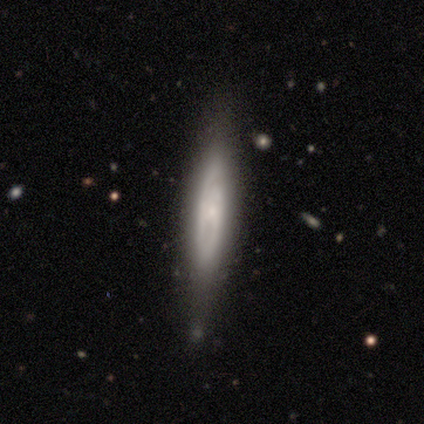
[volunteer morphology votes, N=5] type=featured or disk (60%); edge-on=yes (100%); edge-on bulge=rounded (67%); merging=none (60%).